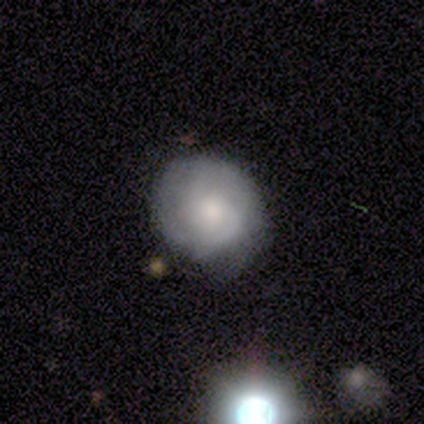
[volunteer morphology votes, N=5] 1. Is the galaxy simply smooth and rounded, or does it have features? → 100% featured or disk, 0% smooth, 0% star or artifact.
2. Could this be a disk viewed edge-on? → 100% no, 0% yes.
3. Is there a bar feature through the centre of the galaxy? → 60% weak, 40% no, 0% strong.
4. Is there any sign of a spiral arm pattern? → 100% yes, 0% no.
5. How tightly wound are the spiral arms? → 40% tight (tied), 40% medium (tied), 20% loose.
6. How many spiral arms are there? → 60% can't tell, 40% 2, 0% 1, 0% 3, 0% 4, 0% more than 4.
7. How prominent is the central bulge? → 80% small, 20% moderate, 0% dominant, 0% large, 0% none.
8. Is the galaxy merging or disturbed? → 80% none, 20% minor disturbance, 0% major disturbance, 0% merger.